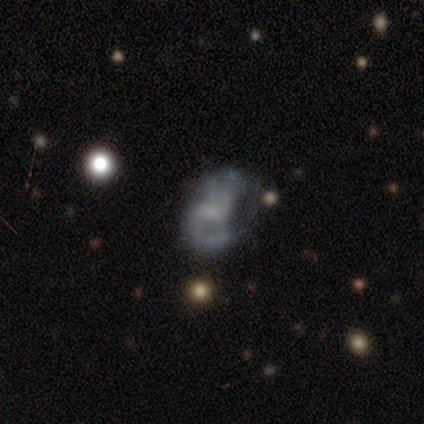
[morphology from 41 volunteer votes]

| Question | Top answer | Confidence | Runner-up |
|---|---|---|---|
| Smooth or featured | featured or disk | 59% | smooth (24%) |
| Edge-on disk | no | 100% | — |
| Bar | no | 54% | weak (42%) |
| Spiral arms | yes | 67% | no (33%) |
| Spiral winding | medium | 50% | tight (25%) |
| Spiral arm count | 2 | 50% | 1 (25%) |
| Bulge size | none | 62% | small (29%) |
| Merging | none | 38% | minor disturbance (29%) |